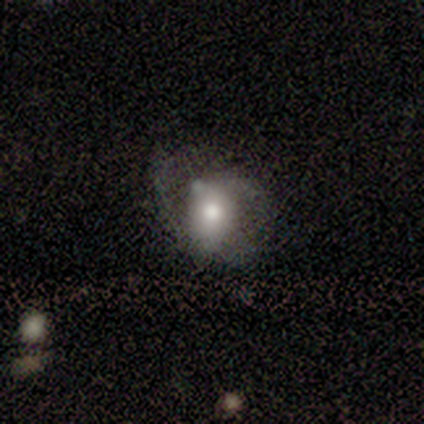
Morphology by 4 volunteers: Volunteers were most divided on "smooth or featured": smooth: 50%, featured or disk: 25%, star or artifact: 25%. More confident: how rounded — in between (100%); merging — none (67%).